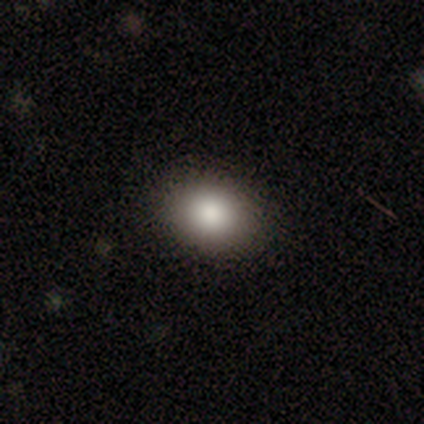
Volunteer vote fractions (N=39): This is clearly a smooth galaxy (85%). How rounded: possibly in between (55%). Merging: clearly none (89%).